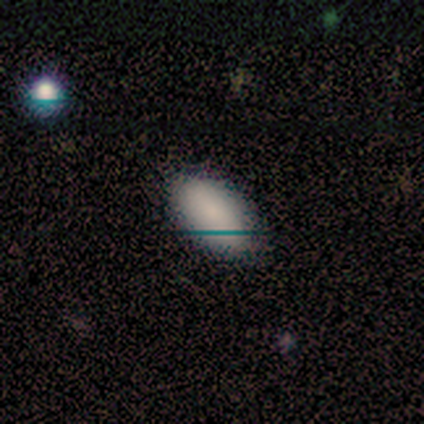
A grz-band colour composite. It shows a smooth galaxy with no disk features (100%) that is in between round and cigar-shaped (100%). Merging: none (80%).